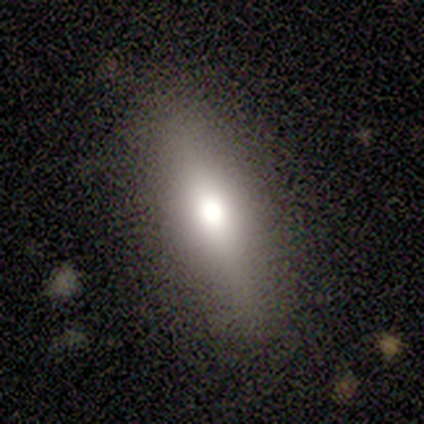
Volunteers were most divided on "smooth or featured" (2-way tie): smooth: 40%, featured or disk: 40%, star or artifact: 20%. More confident: how rounded — cigar-shaped (100%); merging — none (100%).